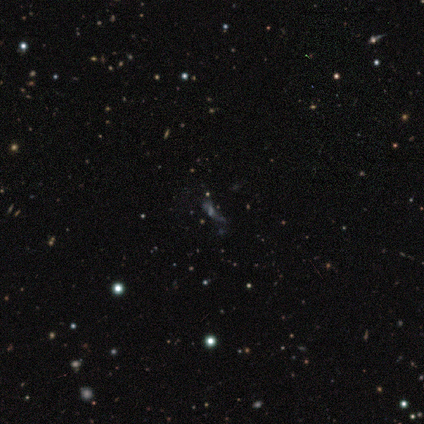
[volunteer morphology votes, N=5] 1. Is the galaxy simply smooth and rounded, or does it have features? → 60% smooth, 20% featured or disk, 20% star or artifact.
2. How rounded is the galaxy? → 67% in between, 33% cigar-shaped, 0% round.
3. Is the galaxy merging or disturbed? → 50% none, 25% major disturbance, 25% merger, 0% minor disturbance.